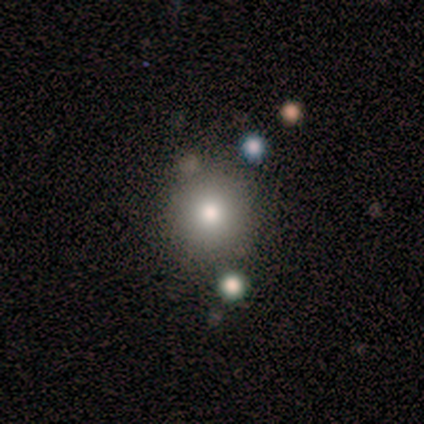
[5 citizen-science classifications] A smooth galaxy with no disk features (100%) that is round (80%). Merging: none (100%).